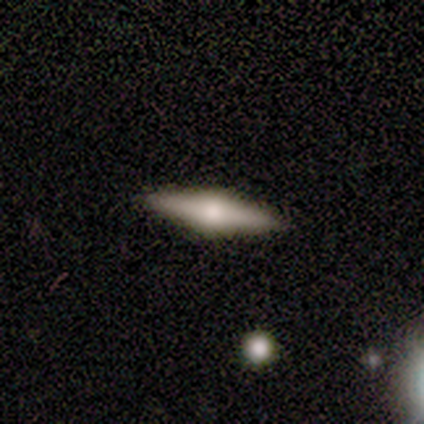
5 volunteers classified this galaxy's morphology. Smooth or featured? 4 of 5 (80%) said featured or disk. Edge-on disk? 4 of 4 (100%) said yes. Edge-on bulge? 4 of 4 (100%) said rounded. Merging? 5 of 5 (100%) said none.